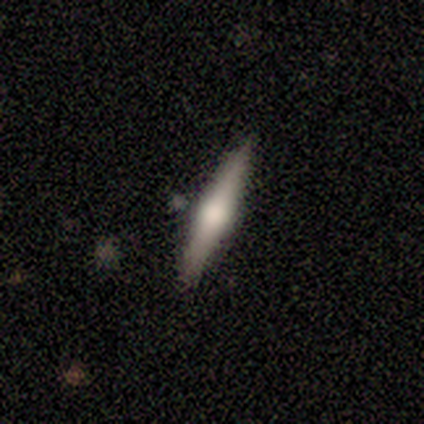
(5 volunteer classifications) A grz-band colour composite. It shows a smooth galaxy with no disk features (80%) that is cigar-shaped (75%). Merging: none (100%).